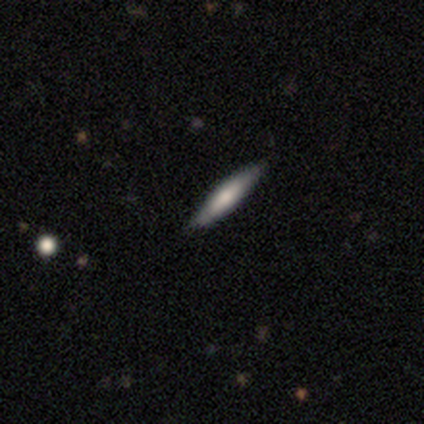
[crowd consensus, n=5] Morphology: type=featured or disk (60%); edge-on=yes (100%); edge-on bulge=rounded (67%); merging=none (100%).